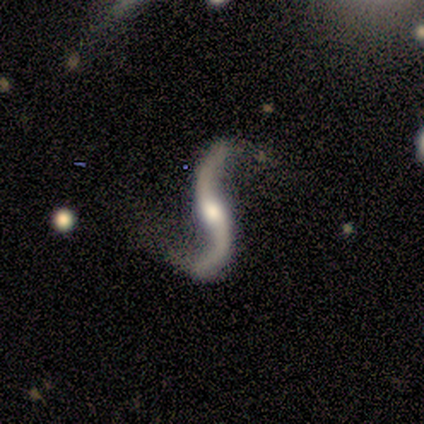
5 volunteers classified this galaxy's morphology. This is clearly a featured or disk galaxy (100%). It is clearly not viewed edge-on (100%). Bar: likely no (60%). Spiral arm pattern: clearly yes (80%). Spiral arm count: clearly 2 (100%). Spiral winding: clearly loose (100%). Central bulge: likely moderate (60%). Merging: likely none (60%).